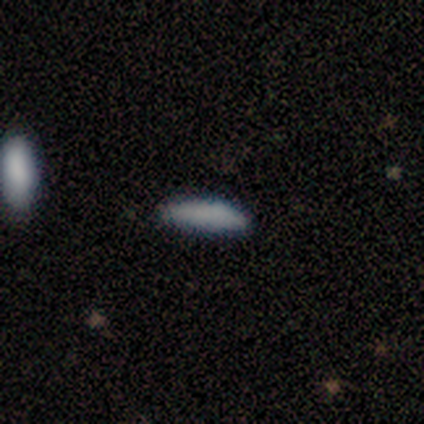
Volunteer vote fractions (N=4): This appears to be a smooth galaxy with no disk features (75%) that is cigar-shaped (100%). Merging: none (75%).